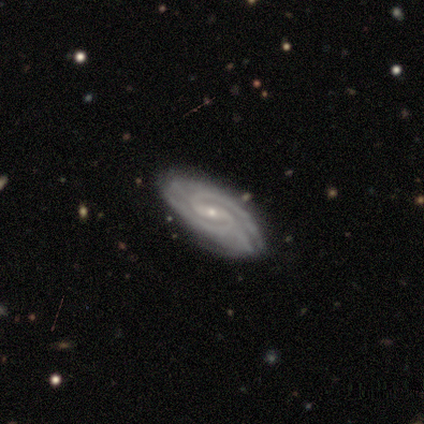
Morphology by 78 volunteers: smooth_or_featured: featured or disk (p=0.95) [alt: smooth p=0.03]
disk_edge_on: no (p=0.95) [alt: yes p=0.05]
bar: weak (p=0.59) [alt: strong p=0.24]
has_spiral_arms: yes (p=1.00)
spiral_winding: tight (p=0.56) [alt: medium p=0.36]
spiral_arm_count: 2 (p=0.71) [alt: 3 p=0.13]
bulge_size: small (p=0.87) [alt: moderate p=0.11]
merging: none (p=0.39) [alt: minor disturbance p=0.08]